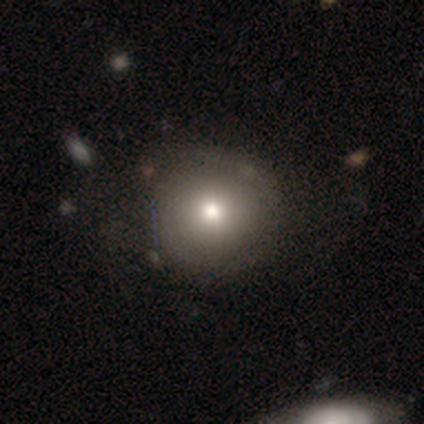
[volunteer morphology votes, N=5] This is clearly a smooth galaxy (80%). How rounded: clearly round (100%). Merging: likely none (75%).